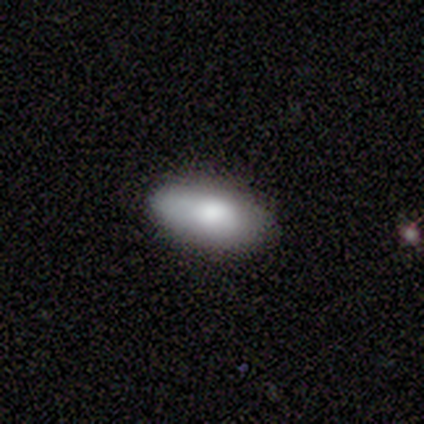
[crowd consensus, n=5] smooth 100%, featured or disk 0%, star or artifact 0%. Down the decision tree: how rounded — in between (80%); merging — none (80%).